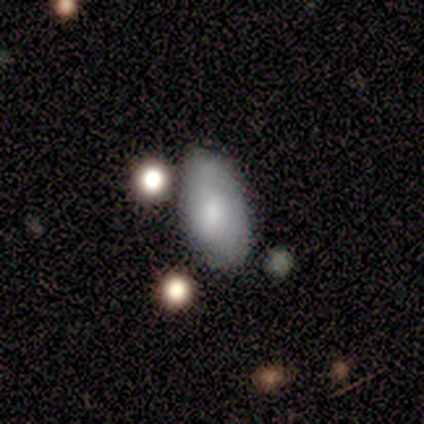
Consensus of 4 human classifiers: Q: Smooth or featured?
A: smooth (50%); runner-up: featured or disk (25%)
Q: How rounded?
A: in between (100%)
Q: Merging?
A: minor disturbance (67%); runner-up: none (33%)